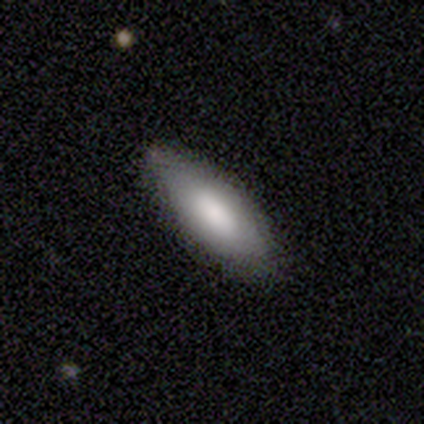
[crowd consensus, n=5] Smooth or featured? smooth (60%)
How rounded? cigar-shaped (67%)
Merging? none (100%)